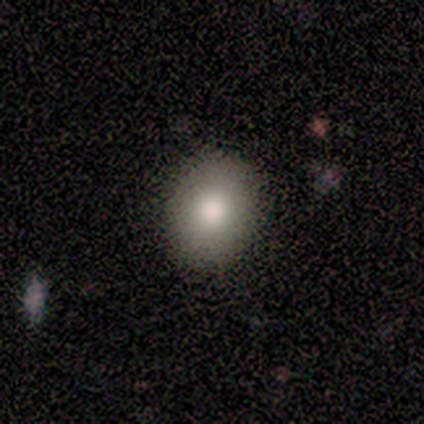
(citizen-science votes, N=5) Smooth or featured?
  - smooth: 100% *
  - featured or disk: 0%
  - star or artifact: 0%
How rounded?
  - in between: 60% *
  - round: 40%
  - cigar-shaped: 0%
Merging?
  - none: 100% *
  - minor disturbance: 0%
  - major disturbance: 0%
  - merger: 0%